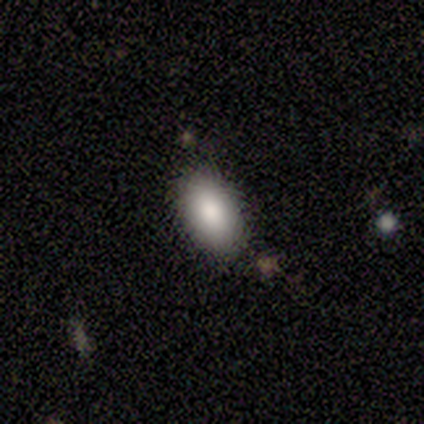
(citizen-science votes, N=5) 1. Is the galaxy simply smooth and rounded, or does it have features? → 80% smooth, 20% featured or disk, 0% star or artifact.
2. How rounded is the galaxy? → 100% in between, 0% round, 0% cigar-shaped.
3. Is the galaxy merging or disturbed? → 80% none, 20% minor disturbance, 0% major disturbance, 0% merger.